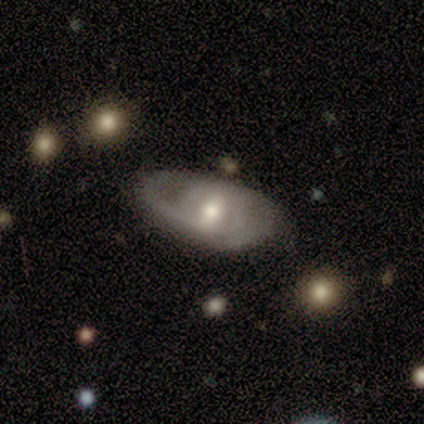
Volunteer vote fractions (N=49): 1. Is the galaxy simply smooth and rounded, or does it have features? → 92% featured or disk, 8% smooth, 0% star or artifact.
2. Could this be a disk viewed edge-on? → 89% no, 11% yes.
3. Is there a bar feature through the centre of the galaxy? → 42% weak, 40% no, 18% strong.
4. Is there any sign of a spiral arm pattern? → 80% yes, 20% no.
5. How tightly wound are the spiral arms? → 50% tight, 34% medium, 16% loose.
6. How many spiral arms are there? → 47% 2, 28% 1, 25% can't tell, 0% 3, 0% 4, 0% more than 4.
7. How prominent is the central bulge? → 68% moderate, 15% large, 15% small, 2% none, 0% dominant.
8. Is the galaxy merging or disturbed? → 65% none, 20% minor disturbance, 14% major disturbance, 0% merger.